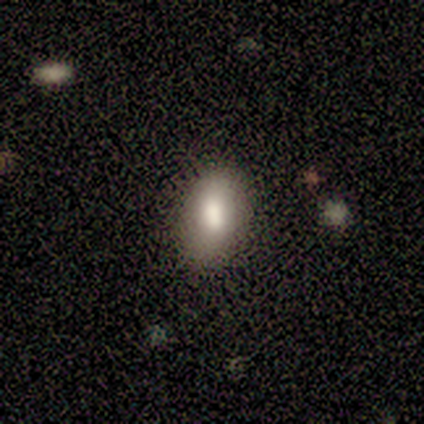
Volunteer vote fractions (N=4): Consensus on every question: smooth or featured — smooth (100%); how rounded — in between (100%); merging — none (100%).